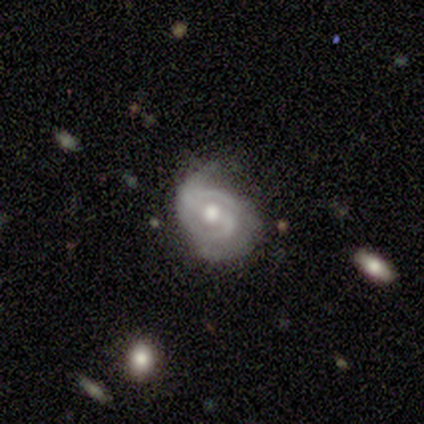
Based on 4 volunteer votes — This appears to be a featured or disk galaxy (100%) with a strong bar (75%), 2 (100%) tight (50%, tied with medium) spiral arms (100%) and a moderate central bulge (75%). Merging: none (100%).